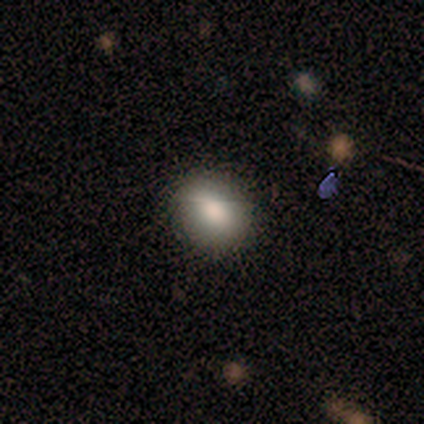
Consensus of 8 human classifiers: Smooth or featured? smooth (88%)
How rounded? in between (71%)
Merging? none (88%)